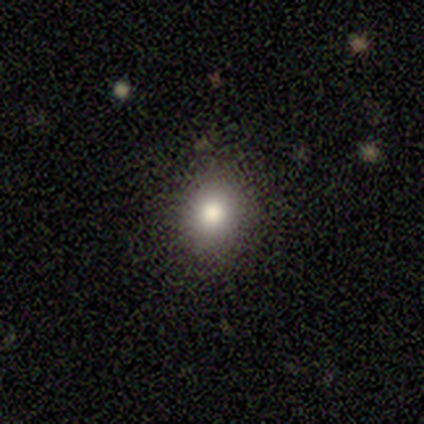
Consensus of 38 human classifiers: A smooth galaxy with no disk features (68%) that is round (73%).

Vote fractions:
- Smooth or featured? smooth: 68% / star or artifact: 21% / featured or disk: 11%
- How rounded? round: 73% / in between: 27% / cigar-shaped: 0%
- Merging? none: 83% / minor disturbance: 13% / major disturbance: 3% / merger: 0%